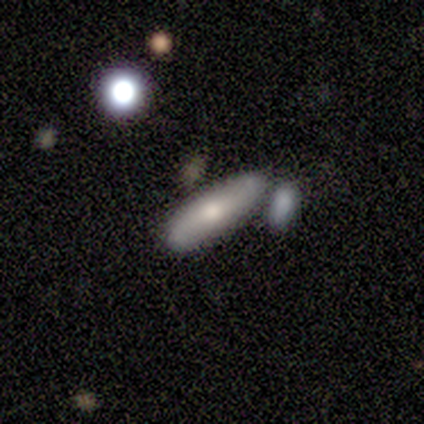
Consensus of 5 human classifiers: Morphology: type=smooth (60%); roundness=in between (100%); merging=none (40%, tied with merger).